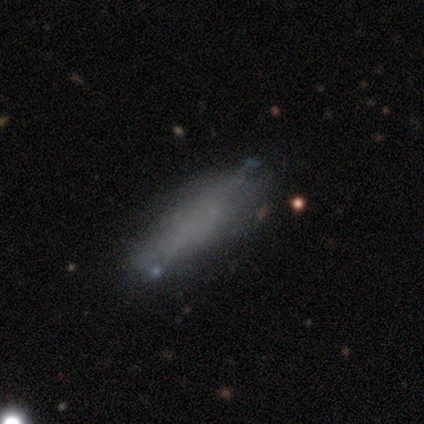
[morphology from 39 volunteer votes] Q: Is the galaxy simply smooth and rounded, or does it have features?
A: smooth — 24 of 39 (62%).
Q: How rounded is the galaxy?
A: cigar-shaped — 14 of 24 (58%).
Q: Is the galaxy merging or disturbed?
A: none — 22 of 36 (61%).